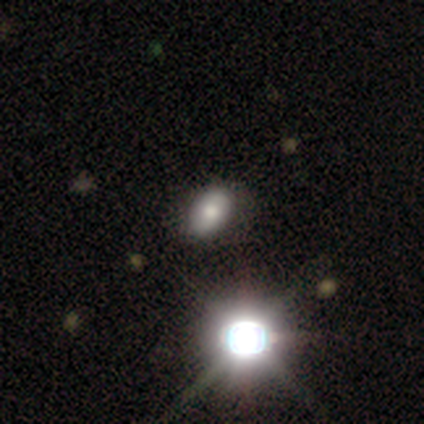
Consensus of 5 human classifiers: smooth 60%, featured or disk 20%, star or artifact 20%. Down the decision tree: how rounded — in between (100%); merging — none (100%).